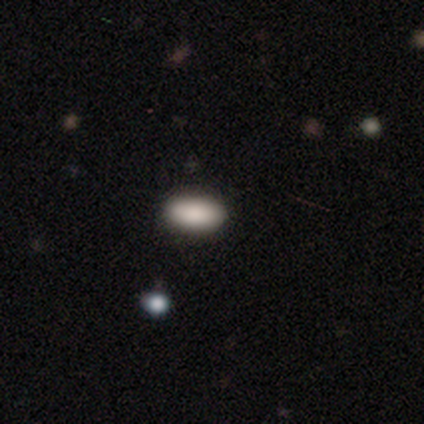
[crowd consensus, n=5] This appears to be a smooth galaxy with no disk features (80%) that is in between round and cigar-shaped (100%). Merging: none (100%).